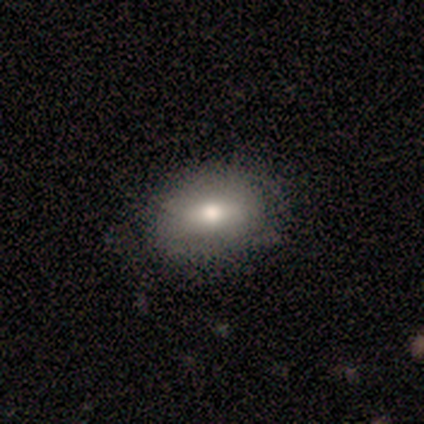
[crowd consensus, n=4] Volunteers were most divided on "how rounded": in between: 67%, round: 33%, cigar-shaped: 0%. More confident: smooth or featured — smooth (75%); merging — none (75%).